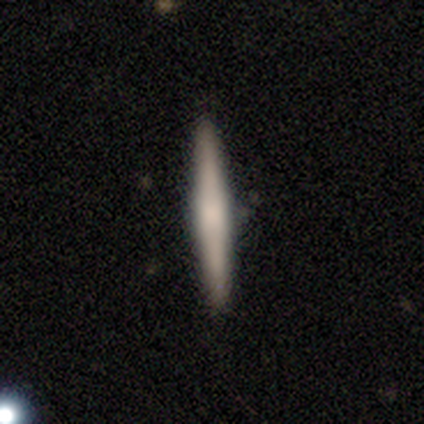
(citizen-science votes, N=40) Smooth or featured? 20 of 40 (50%) said smooth. How rounded? 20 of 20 (100%) said cigar-shaped. Merging? 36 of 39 (92%) said none.